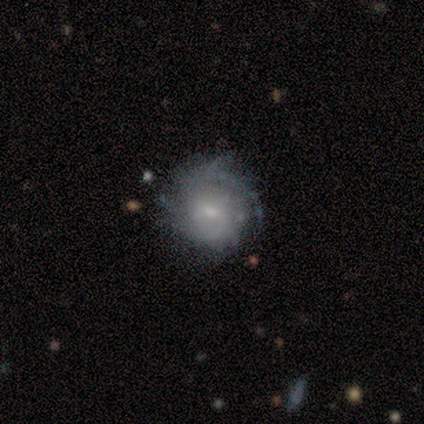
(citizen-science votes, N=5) featured or disk 100%, smooth 0%, star or artifact 0%. Down the decision tree: edge-on disk — no (100%); bar — no (60%); spiral arms — yes (60%); spiral arm count — can't tell (100%); spiral winding — tight (67%); bulge size — small (60%); merging — none (80%).